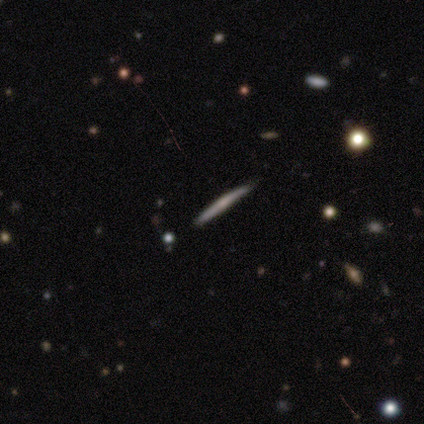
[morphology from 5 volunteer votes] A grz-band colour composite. It shows a featured or disk galaxy (60%) viewed edge-on (100%) with no central bulge (67%). Merging: none (100%).